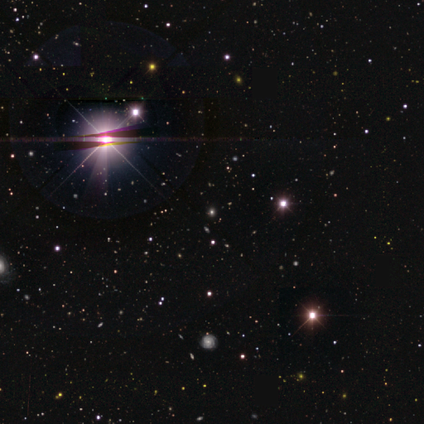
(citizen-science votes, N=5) Consensus on every question: smooth or featured — star or artifact (100%).